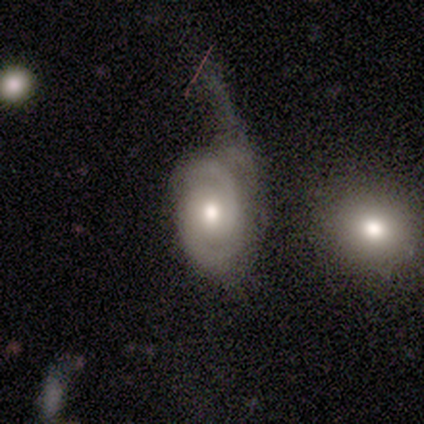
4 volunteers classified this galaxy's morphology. smooth-or-featured: smooth: 50% (tied) | featured or disk: 50% (tied) | star or artifact: 0%
  how-rounded: in between: 100% | round: 0% | cigar-shaped: 0%
  merging: major disturbance: 75% | minor disturbance: 25% | none: 0% | merger: 0%